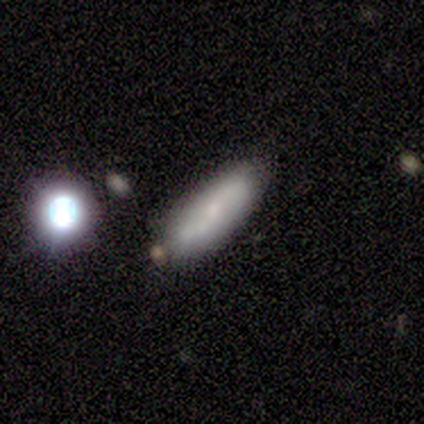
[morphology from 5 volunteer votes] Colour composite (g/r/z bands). It shows a featured or disk galaxy (60%) with a strong bar (50%, tied with no), 2 (100%) medium (100%) spiral arms (100%) and a small central bulge (50%, tied with none). Merging: none (75%).